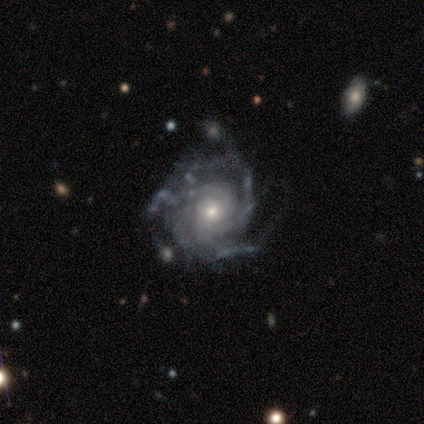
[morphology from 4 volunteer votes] Smooth or featured? 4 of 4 (100%) said featured or disk. Edge-on disk? 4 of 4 (100%) said no. Bar? 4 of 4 (100%) said no. Spiral arms? 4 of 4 (100%) said yes. Spiral winding? 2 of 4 (50%) said tight. Spiral arm count? 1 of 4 (25%, tied with 4, more than 4 and can't tell) said 3. Bulge size? 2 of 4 (50%) said moderate. Merging? 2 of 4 (50%) said major disturbance.